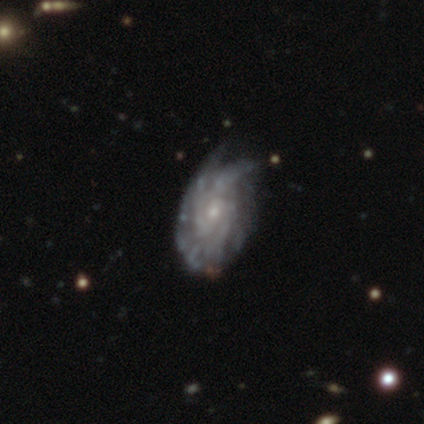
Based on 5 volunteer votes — Smooth or featured?
  - featured or disk: 80% *
  - star or artifact: 20%
  - smooth: 0%
Edge-on disk?
  - no: 100% *
  - yes: 0%
Bar?
  - no: 100% *
  - strong: 0%
  - weak: 0%
Spiral arms?
  - yes: 100% *
  - no: 0%
Spiral winding?
  - tight: 50% *
  - medium: 25%
  - loose: 25%
Spiral arm count?
  - more than 4: 50% *
  - 3: 25%
  - can't tell: 25%
  - 1: 0%
  - 2: 0%
  - 4: 0%
Bulge size?
  - moderate: 50% * (tied)
  - small: 50% * (tied)
  - dominant: 0%
  - large: 0%
  - none: 0%
Merging?
  - minor disturbance: 50% *
  - none: 25%
  - major disturbance: 25%
  - merger: 0%